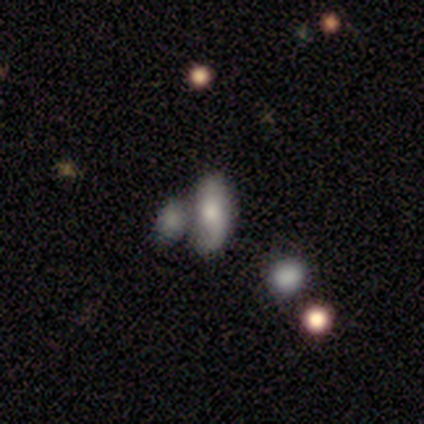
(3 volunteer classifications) This is likely a smooth galaxy (67%). How rounded: clearly in between (100%). Merging: likely none (67%).